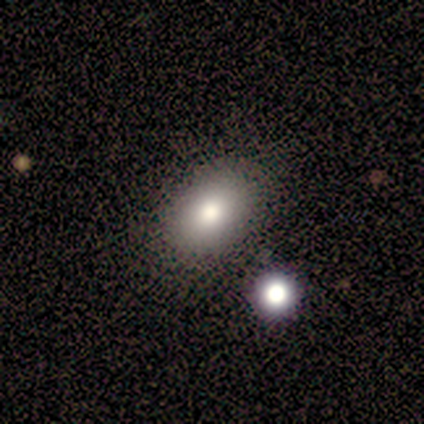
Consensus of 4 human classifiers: Smooth or featured: smooth — 75% (featured or disk — 25%)
How rounded: round — 100%
Merging: none — 75% (minor disturbance — 25%)